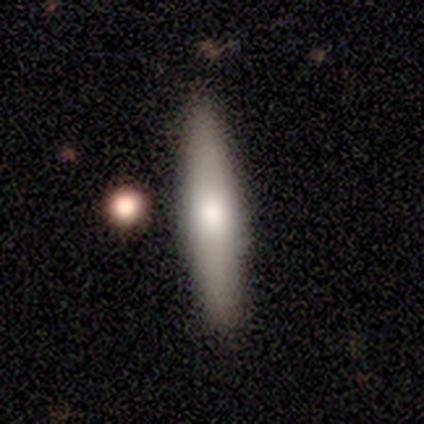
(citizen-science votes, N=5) This appears to be a smooth galaxy with no disk features (40%, tied with featured or disk) that is in between round and cigar-shaped (100%). Merging: none (75%).